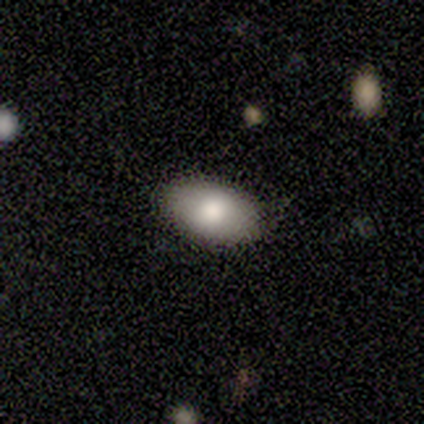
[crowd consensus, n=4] smooth 75%, featured or disk 25%, star or artifact 0%. Down the decision tree: how rounded — in between (100%); merging — none (75%).